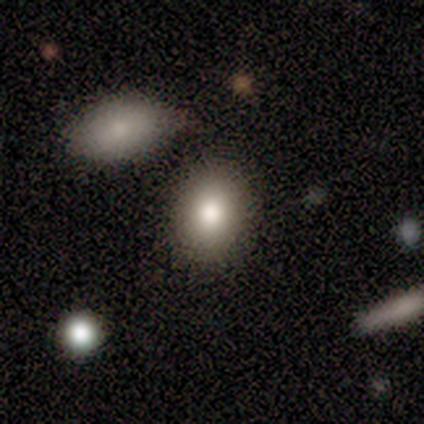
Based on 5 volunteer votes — Smooth or featured? 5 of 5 (100%) said smooth. How rounded? 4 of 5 (80%) said round. Merging? 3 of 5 (60%) said merger.